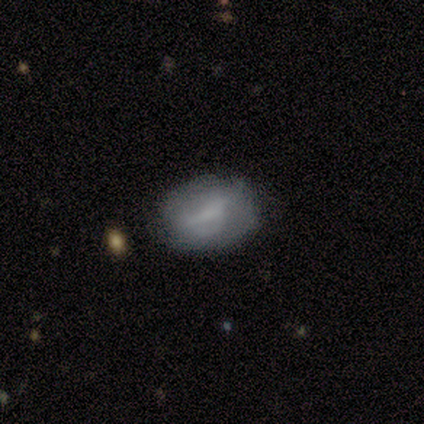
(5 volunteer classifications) Volunteers were most divided on "smooth or featured": smooth: 60%, featured or disk: 40%, star or artifact: 0%. More confident: how rounded — in between (67%); merging — minor disturbance (60%).